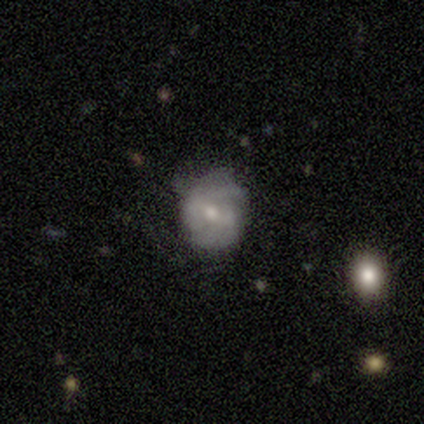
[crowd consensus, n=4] smooth_or_featured: featured or disk (p=1.00)
disk_edge_on: no (p=0.75) [alt: yes p=0.25]
bar: no (p=0.67) [alt: strong p=0.33]
has_spiral_arms: yes (p=1.00)
spiral_winding: tight (p=0.67) [alt: loose p=0.33]
spiral_arm_count: 2 (p=0.33) [tied with: 4 p=0.33, can't tell p=0.33]
bulge_size: moderate (p=0.67) [alt: small p=0.33]
merging: none (p=0.50) [tied with: minor disturbance p=0.50]